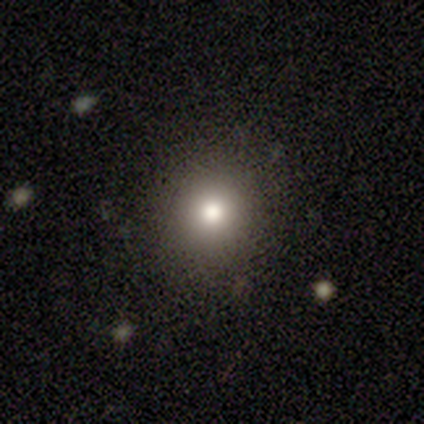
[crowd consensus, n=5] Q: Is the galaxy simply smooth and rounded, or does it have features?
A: smooth — 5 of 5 (100%).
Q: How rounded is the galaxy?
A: round — 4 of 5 (80%).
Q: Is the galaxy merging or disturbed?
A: none — 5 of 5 (100%).